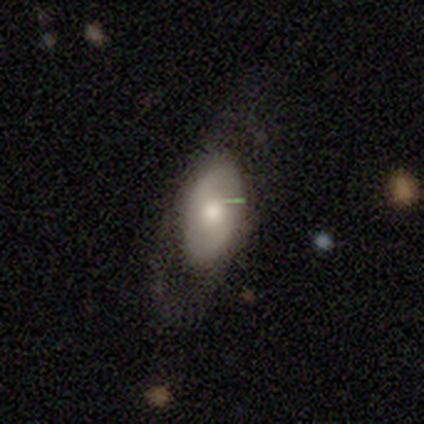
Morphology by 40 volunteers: A smooth galaxy with no disk features (57%) that is in between round and cigar-shaped (96%). Merging: none (59%).